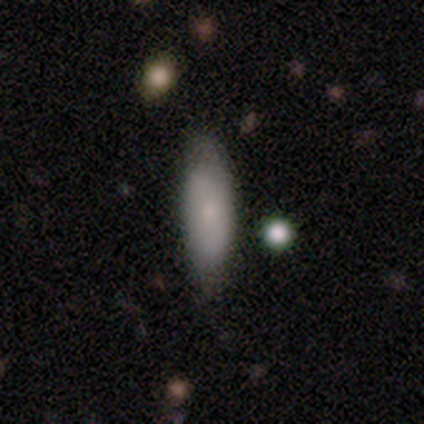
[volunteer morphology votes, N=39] type=smooth (79%); roundness=in between (61%); merging=none (74%).